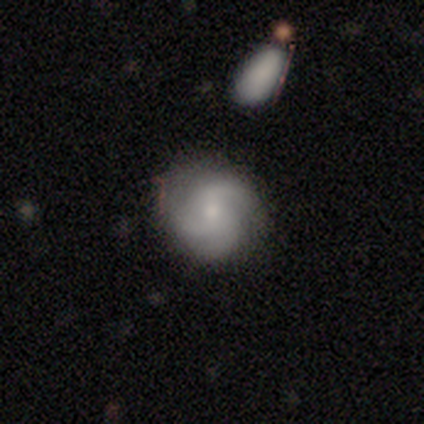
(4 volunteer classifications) smooth_or_featured: featured or disk (p=0.75) [alt: smooth p=0.25]
disk_edge_on: no (p=0.67) [alt: yes p=0.33]
bar: weak (p=0.50) [tied with: no p=0.50]
has_spiral_arms: yes (p=0.50) [tied with: no p=0.50]
spiral_winding: tight (p=1.00)
spiral_arm_count: 3 (p=1.00)
bulge_size: small (p=1.00)
merging: none (p=0.50) [tied with: minor disturbance p=0.50]